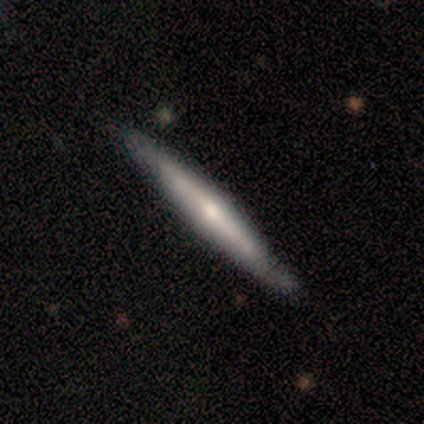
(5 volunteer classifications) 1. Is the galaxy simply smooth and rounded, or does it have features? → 60% featured or disk, 40% smooth, 0% star or artifact.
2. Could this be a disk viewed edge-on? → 100% yes, 0% no.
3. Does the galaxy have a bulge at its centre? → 100% rounded, 0% boxy, 0% none.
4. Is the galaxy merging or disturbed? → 80% none, 20% minor disturbance, 0% major disturbance, 0% merger.